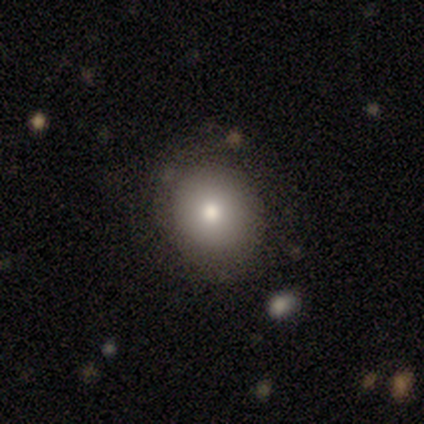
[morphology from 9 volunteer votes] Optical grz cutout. It shows a smooth galaxy with no disk features (67%) that is round (100%). Merging: none (100%).